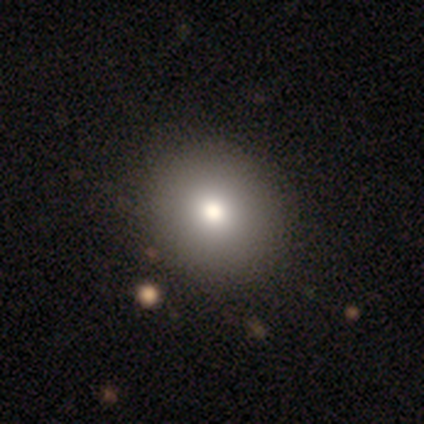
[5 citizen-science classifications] Q: Smooth or featured?
A: smooth (60%); runner-up: featured or disk (20%)
Q: How rounded?
A: round (100%)
Q: Merging?
A: none (100%)